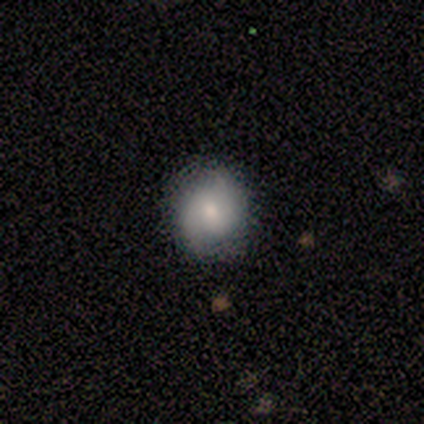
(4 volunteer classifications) Smooth or featured? 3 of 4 (75%) said featured or disk. Edge-on disk? 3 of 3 (100%) said no. Bar? 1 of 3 (33%, tied with weak and no) said strong. Spiral arms? 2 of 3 (67%) said yes. Spiral winding? 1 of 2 (50%, tied with loose) said tight. Spiral arm count? 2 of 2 (100%) said 2. Bulge size? 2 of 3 (67%) said moderate. Merging? 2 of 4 (50%) said none.